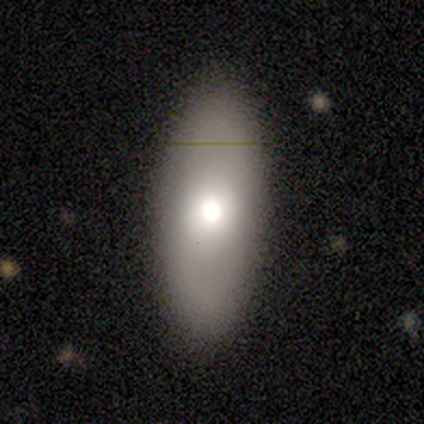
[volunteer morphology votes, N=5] smooth-or-featured: smooth: 60% | featured or disk: 40% | star or artifact: 0%
  how-rounded: in between: 100% | round: 0% | cigar-shaped: 0%
  merging: none: 80% | minor disturbance: 20% | major disturbance: 0% | merger: 0%